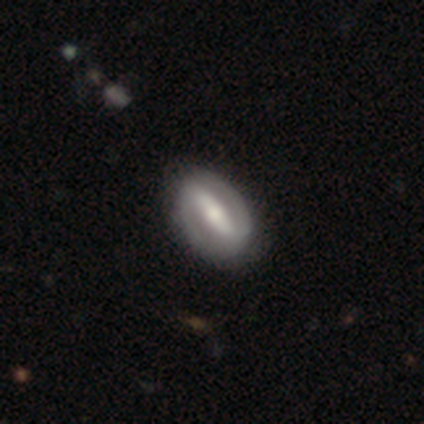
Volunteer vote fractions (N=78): featured or disk 78%, smooth 19%, star or artifact 3%. Down the decision tree: edge-on disk — no (97%); bar — strong (83%); spiral arms — yes (85%); spiral arm count — 2 (94%); spiral winding — medium (44%); bulge size — moderate (59%); merging — none (43%).